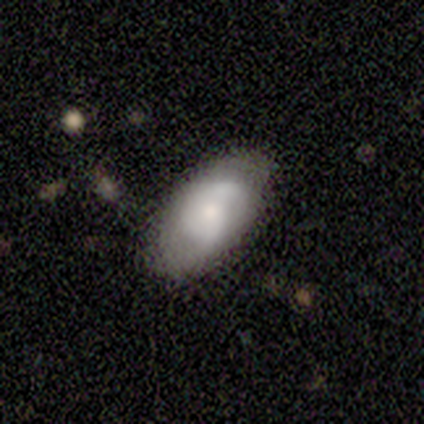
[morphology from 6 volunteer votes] smooth-or-featured: smooth: 50% (tied) | featured or disk: 50% (tied) | star or artifact: 0%
  how-rounded: in between: 100% | round: 0% | cigar-shaped: 0%
  merging: none: 67% | minor disturbance: 33% | major disturbance: 0% | merger: 0%